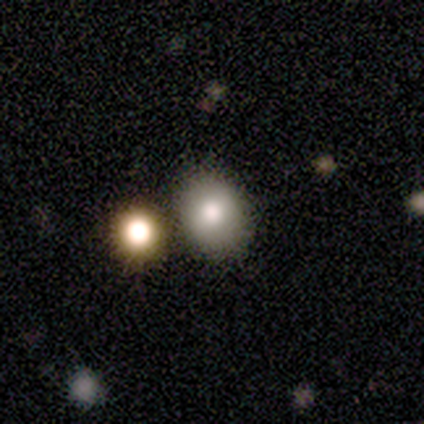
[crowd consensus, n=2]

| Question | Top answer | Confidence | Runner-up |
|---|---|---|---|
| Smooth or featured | smooth | 100% | — |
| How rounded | round | 50% | tied: in between (50%) |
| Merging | none | 100% | — |